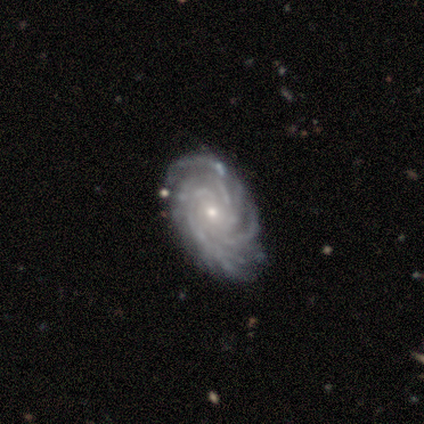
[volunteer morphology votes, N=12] This appears to be a featured or disk galaxy (92%) with no bar (82%), more than 4 (64%) tight (73%) spiral arms (100%) and a small central bulge (64%). Merging: none (73%).